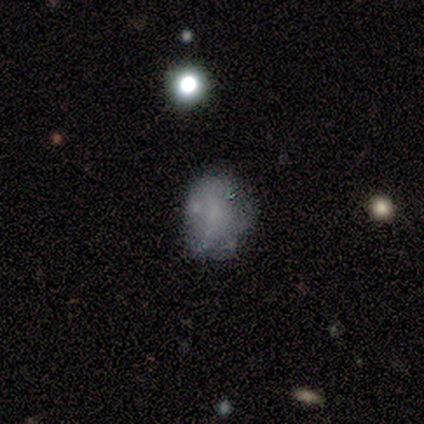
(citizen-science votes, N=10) featured or disk 40%, smooth 30%, star or artifact 30%. Down the decision tree: edge-on disk — no (100%); bar — no (100%); spiral arms — no (75%); bulge size — small (50%); merging — none (43%, tied with minor disturbance).